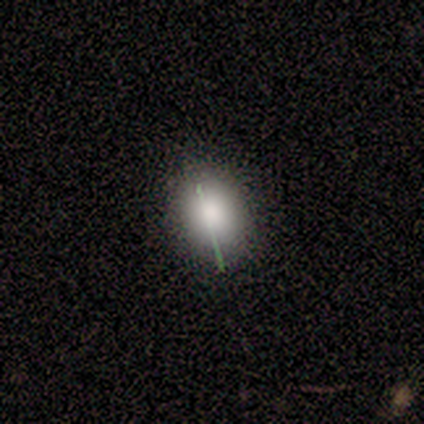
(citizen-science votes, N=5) Overall: smooth (80%). How rounded: round (50%, tied with in between). Merging: none (100%).